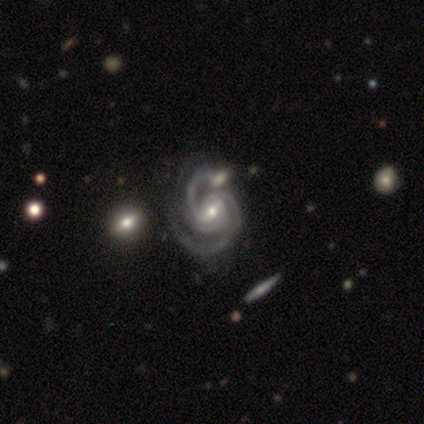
Q: Smooth or featured?
A: featured or disk (100%)
Q: Edge-on disk?
A: no (100%)
Q: Bar?
A: weak (65%); runner-up: no (22%)
Q: Spiral arms?
A: yes (100%)
Q: Spiral winding?
A: tight (50%); runner-up: medium (48%)
Q: Spiral arm count?
A: 2 (48%); tied with: 3 (48%)
Q: Bulge size?
A: small (48%); runner-up: moderate (45%)
Q: Merging?
A: none (42%); runner-up: merger (20%)